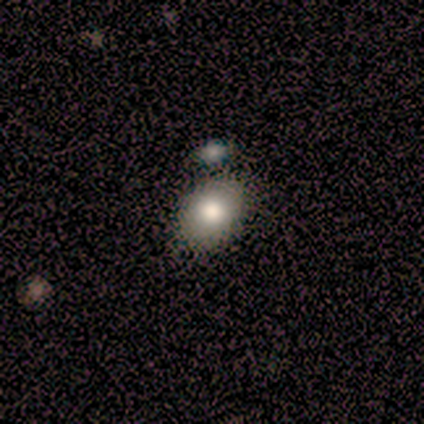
Smooth or featured? smooth (100%)
How rounded? in between (80%)
Merging? none (80%)